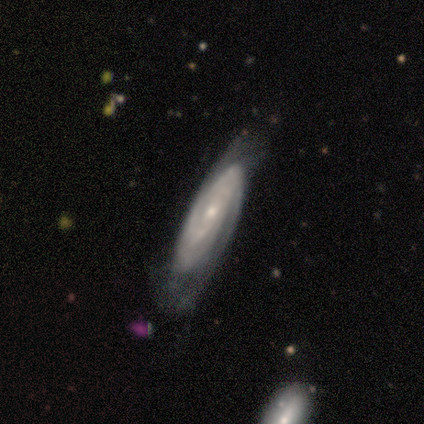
Morphology: type=featured or disk (85%); edge-on=no (88%); bar=no (73%); spiral arms=yes (100%); winding=tight (73%); arm count=can't tell (53%); bulge=small (60%); merging=none (63%).